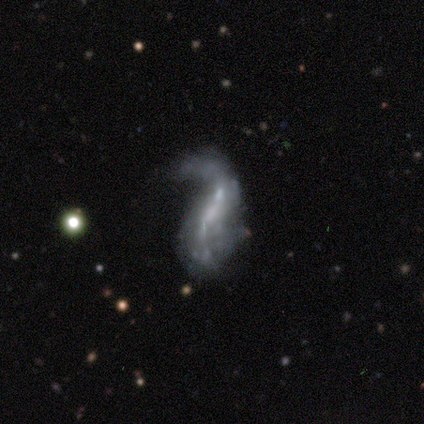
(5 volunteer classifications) smooth-or-featured: smooth: 60% | featured or disk: 40% | star or artifact: 0%
  how-rounded: in between: 67% | cigar-shaped: 33% | round: 0%
  merging: major disturbance: 100% | none: 0% | minor disturbance: 0% | merger: 0%